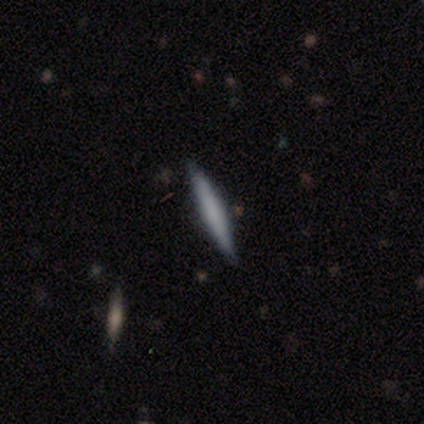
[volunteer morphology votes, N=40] Smooth or featured?
  - smooth: 55% *
  - featured or disk: 42%
  - star or artifact: 2%
How rounded?
  - cigar-shaped: 100% *
  - round: 0%
  - in between: 0%
Merging?
  - none: 92% *
  - minor disturbance: 5%
  - merger: 3%
  - major disturbance: 0%